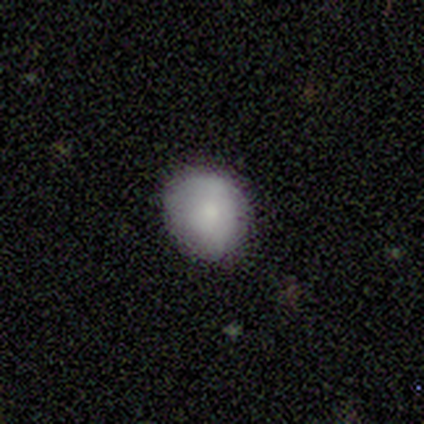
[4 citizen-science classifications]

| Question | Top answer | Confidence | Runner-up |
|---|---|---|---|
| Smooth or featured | smooth | 75% | featured or disk (25%) |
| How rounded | round | 67% | in between (33%) |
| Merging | none | 100% | — |